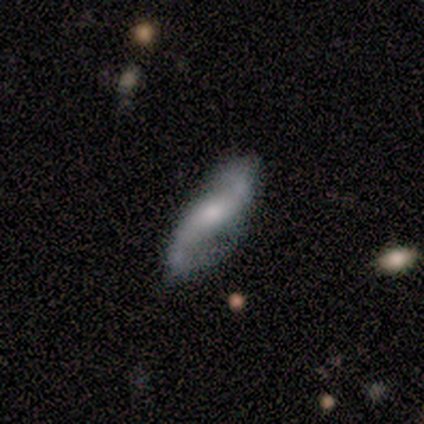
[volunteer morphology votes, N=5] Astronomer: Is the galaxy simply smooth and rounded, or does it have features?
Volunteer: featured or disk — 100%.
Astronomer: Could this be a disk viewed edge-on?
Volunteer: no — 100%.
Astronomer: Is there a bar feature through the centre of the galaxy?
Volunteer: weak — 80%.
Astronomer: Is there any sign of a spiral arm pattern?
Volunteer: yes — 100%.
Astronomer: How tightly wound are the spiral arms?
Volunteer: loose — 60%.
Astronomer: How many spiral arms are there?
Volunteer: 2 — 80%.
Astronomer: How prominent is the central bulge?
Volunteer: moderate — 60%.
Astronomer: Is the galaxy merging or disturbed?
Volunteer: none — 80%.